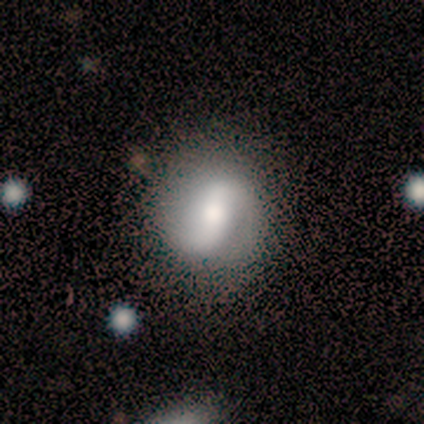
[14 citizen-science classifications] A featured or disk galaxy (71%) with a strong bar (50%), 2 (100%) medium (50%) spiral arms (80%) and a moderate central bulge (80%).

Vote fractions:
- Smooth or featured? featured or disk: 71% / smooth: 29% / star or artifact: 0%
- Edge-on disk? no: 100% / yes: 0%
- Bar? strong: 50% / weak: 40% / no: 10%
- Spiral arms? yes: 80% / no: 20%
- Spiral winding? medium: 50% / tight: 25% / loose: 25%
- Spiral arm count? 2: 100% / 1: 0% / 3: 0% / 4: 0% / more than 4: 0% / can't tell: 0%
- Bulge size? moderate: 80% / large: 20% / dominant: 0% / small: 0% / none: 0%
- Merging? none: 79% / minor disturbance: 21% / major disturbance: 0% / merger: 0%